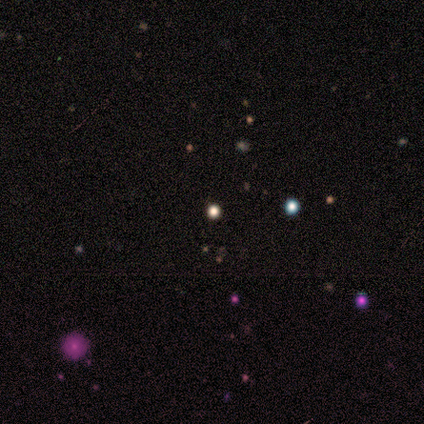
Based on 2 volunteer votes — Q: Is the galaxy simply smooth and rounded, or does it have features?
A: smooth — 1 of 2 (50%, tied with star or artifact).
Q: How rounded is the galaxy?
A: round — 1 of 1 (100%).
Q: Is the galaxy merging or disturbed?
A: none — 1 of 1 (100%).